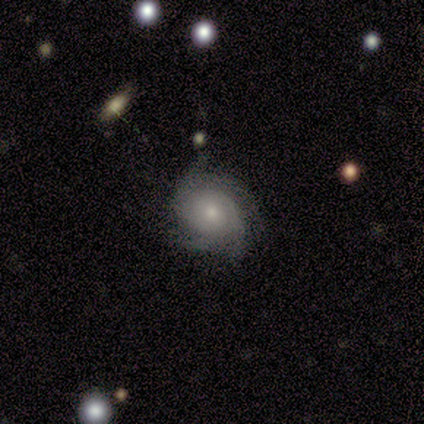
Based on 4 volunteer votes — Smooth or featured? 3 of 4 (75%) said featured or disk. Edge-on disk? 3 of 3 (100%) said no. Bar? 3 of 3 (100%) said no. Spiral arms? 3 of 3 (100%) said yes. Spiral winding? 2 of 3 (67%) said tight. Spiral arm count? 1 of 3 (33%, tied with 4 and can't tell) said 3. Bulge size? 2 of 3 (67%) said moderate. Merging? 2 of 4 (50%) said minor disturbance.